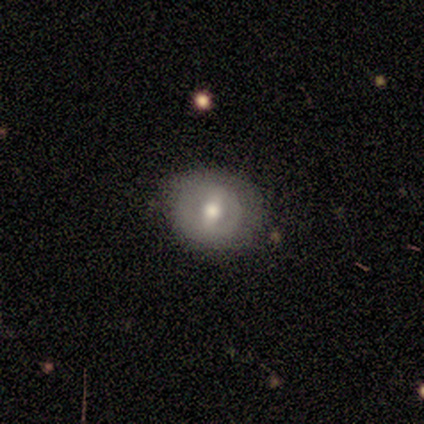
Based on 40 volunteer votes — Smooth or featured? featured or disk (60%)
Edge-on disk? no (92%)
Bar? weak (59%)
Spiral arms? no (86%)
Bulge size? moderate (68%)
Merging? none (76%)